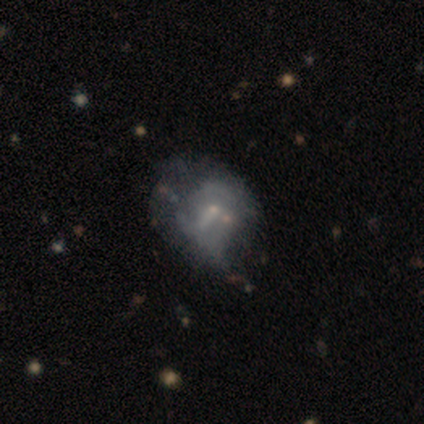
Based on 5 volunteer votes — Smooth or featured? 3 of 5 (60%) said featured or disk. Edge-on disk? 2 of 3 (67%) said no. Bar? 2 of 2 (100%) said no. Spiral arms? 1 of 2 (50%, tied with no) said yes. Spiral winding? 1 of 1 (100%) said tight. Spiral arm count? 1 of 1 (100%) said can't tell. Bulge size? 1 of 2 (50%, tied with small) said large. Merging? 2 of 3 (67%) said minor disturbance.